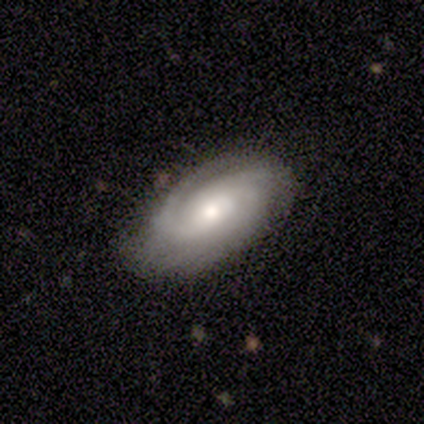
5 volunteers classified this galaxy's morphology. A featured or disk galaxy (100%) with no bar (80%), 3 (40%, tied with can't tell) tight (80%) spiral arms (100%) and a moderate central bulge (100%).

Vote fractions:
- Smooth or featured? featured or disk: 100% / smooth: 0% / star or artifact: 0%
- Edge-on disk? no: 100% / yes: 0%
- Bar? no: 80% / weak: 20% / strong: 0%
- Spiral arms? yes: 100% / no: 0%
- Spiral winding? tight: 80% / medium: 20% / loose: 0%
- Spiral arm count? 3: 40% (tied) / can't tell: 40% (tied) / 1: 20% / 2: 0% / 4: 0% / more than 4: 0%
- Bulge size? moderate: 100% / dominant: 0% / large: 0% / small: 0% / none: 0%
- Merging? none: 100% / minor disturbance: 0% / major disturbance: 0% / merger: 0%